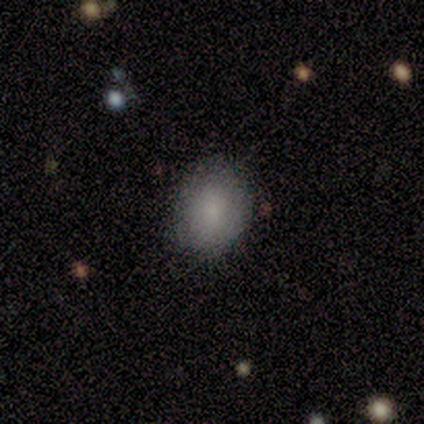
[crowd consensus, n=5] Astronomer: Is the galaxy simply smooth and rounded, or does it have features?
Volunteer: smooth — 100%.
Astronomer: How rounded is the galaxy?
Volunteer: in between — 80%.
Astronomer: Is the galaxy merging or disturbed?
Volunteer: none — 100%.